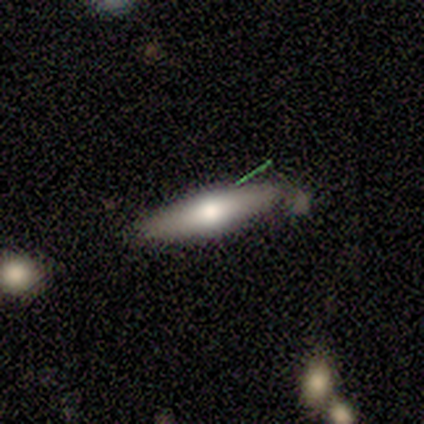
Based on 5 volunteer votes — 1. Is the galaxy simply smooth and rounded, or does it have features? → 60% smooth, 40% featured or disk, 0% star or artifact.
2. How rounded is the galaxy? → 67% cigar-shaped, 33% in between, 0% round.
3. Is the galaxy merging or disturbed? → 100% none, 0% minor disturbance, 0% major disturbance, 0% merger.